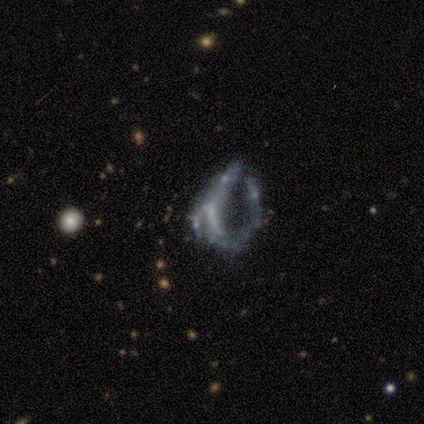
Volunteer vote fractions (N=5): Smooth or featured?
  - featured or disk: 40% * (tied)
  - star or artifact: 40% * (tied)
  - smooth: 20%
Edge-on disk?
  - no: 100% *
  - yes: 0%
Bar?
  - no: 100% *
  - strong: 0%
  - weak: 0%
Spiral arms?
  - no: 100% *
  - yes: 0%
Bulge size?
  - moderate: 50% * (tied)
  - none: 50% * (tied)
  - dominant: 0%
  - large: 0%
  - small: 0%
Merging?
  - major disturbance: 67% *
  - none: 33%
  - minor disturbance: 0%
  - merger: 0%